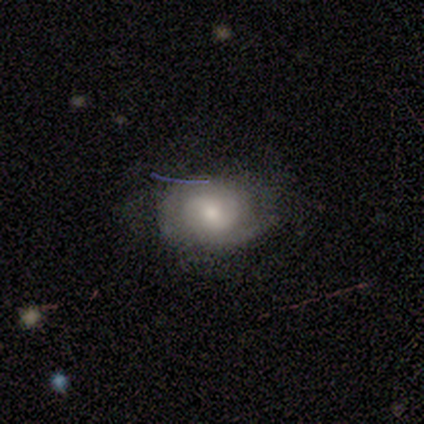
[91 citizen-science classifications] smooth-or-featured: featured or disk: 53% | smooth: 37% | star or artifact: 10%
  disk-edge-on: no: 98% | yes: 2%
    bar: weak: 47% (tied) | no: 47% (tied) | strong: 6%
    has-spiral-arms: yes: 83% | no: 17%
      spiral-winding: tight: 62% | medium: 33% | loose: 5%
      spiral-arm-count: 2: 56% | can't tell: 36% | 3: 5% | 1: 3% | 4: 0% | more than 4: 0%
    bulge-size: moderate: 47% | small: 40% | large: 11% | none: 2% | dominant: 0%
  merging: none: 68% | minor disturbance: 24% | major disturbance: 7% | merger: 0%